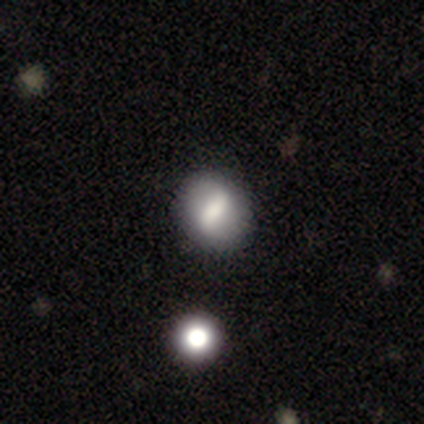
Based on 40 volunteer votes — Smooth or featured? 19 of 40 (48%) said smooth. How rounded? 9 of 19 (47%, tied with in between) said round. Merging? 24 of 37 (65%) said none.